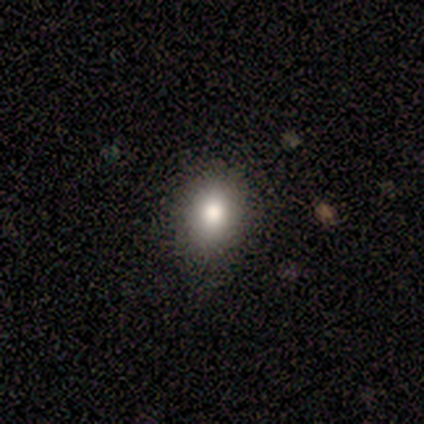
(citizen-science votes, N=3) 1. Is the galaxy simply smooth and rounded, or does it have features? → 100% smooth, 0% featured or disk, 0% star or artifact.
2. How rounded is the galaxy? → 33% round (tied), 33% in between (tied), 33% cigar-shaped (tied).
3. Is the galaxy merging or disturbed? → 100% none, 0% minor disturbance, 0% major disturbance, 0% merger.